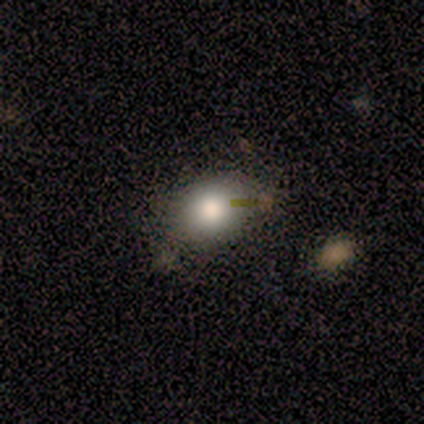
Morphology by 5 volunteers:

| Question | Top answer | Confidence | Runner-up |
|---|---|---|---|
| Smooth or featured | smooth | 80% | star or artifact (20%) |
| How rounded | in between | 75% | round (25%) |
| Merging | none | 75% | minor disturbance (25%) |